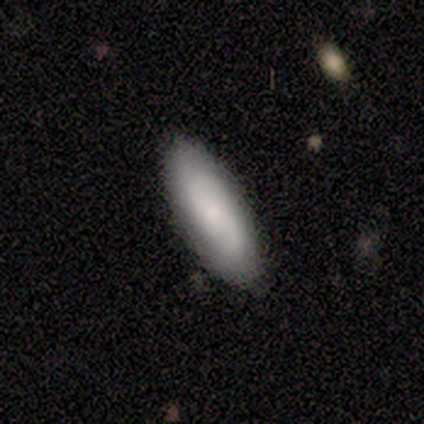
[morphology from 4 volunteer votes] This appears to be a featured or disk galaxy (100%) with no bar (75%), 2 (100%) tight (33%, tied with medium and loose) spiral arms (75%) and a moderate central bulge (50%, tied with small). Merging: none (100%).